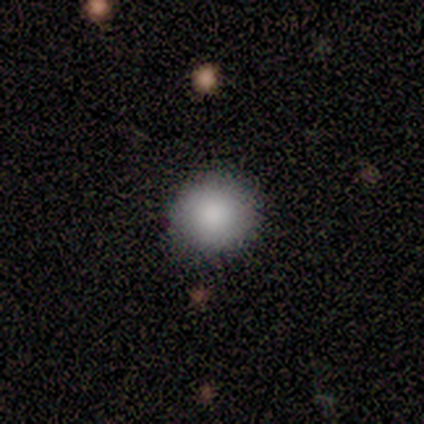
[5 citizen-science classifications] This is clearly a smooth galaxy (100%). How rounded: clearly round (100%). Merging: clearly none (80%).